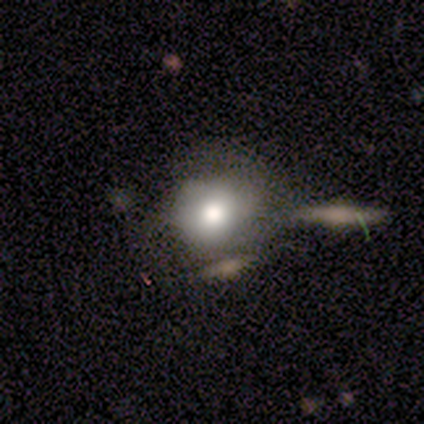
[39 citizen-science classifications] A smooth galaxy with no disk features (67%) that is round (92%). Merging: none (44%).